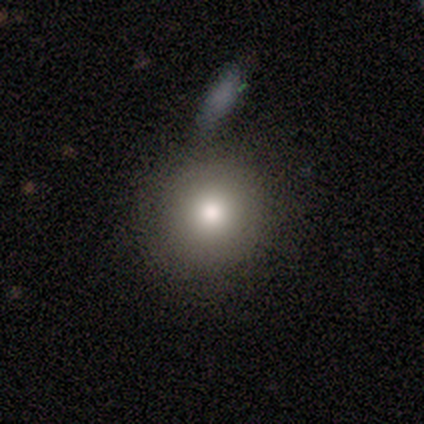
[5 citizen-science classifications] This is clearly a smooth galaxy (100%). How rounded: clearly round (100%). Merging: clearly none (80%).